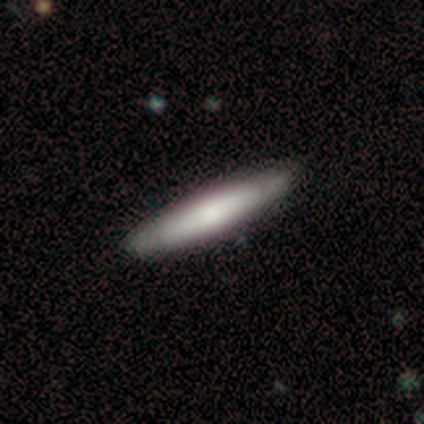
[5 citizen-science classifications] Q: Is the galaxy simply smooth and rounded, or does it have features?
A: smooth — 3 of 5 (60%).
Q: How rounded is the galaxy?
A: cigar-shaped — 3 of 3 (100%).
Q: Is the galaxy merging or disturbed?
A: none — 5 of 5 (100%).